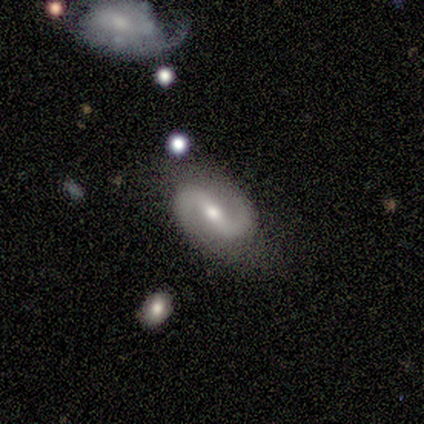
This appears to be a featured or disk galaxy (90%) with a strong bar (37%), 2 (100%) medium (58%) spiral arms (94%) and a moderate central bulge (60%). Merging: none (76%).